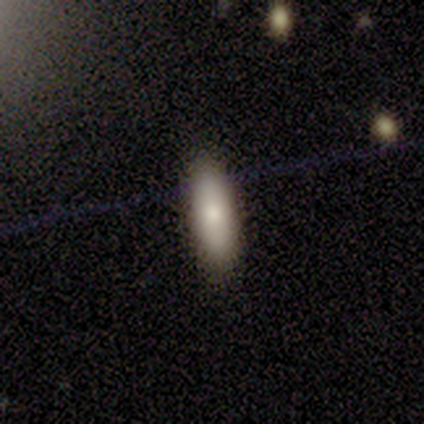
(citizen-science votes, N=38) Smooth or featured: smooth — 95% (star or artifact — 5%)
How rounded: in between — 72% (cigar-shaped — 25%)
Merging: none — 92% (minor disturbance — 6%)